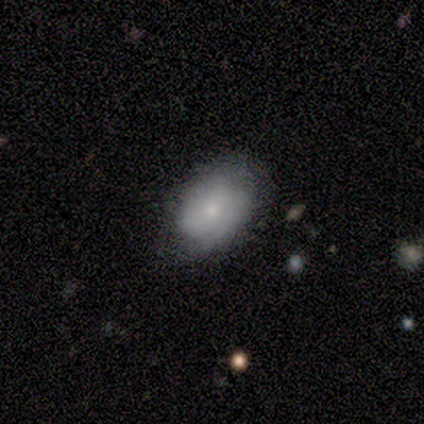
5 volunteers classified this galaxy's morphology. A smooth galaxy with no disk features (80%) that is in between round and cigar-shaped (100%). Merging: none (50%).